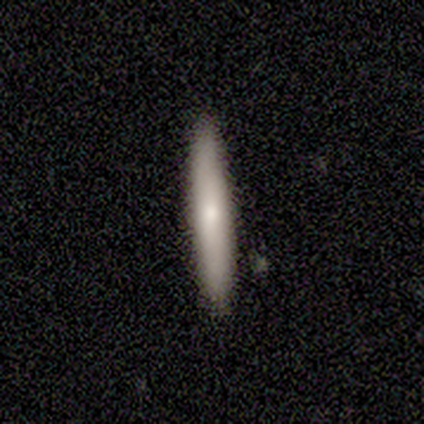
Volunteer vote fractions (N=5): This appears to be a smooth galaxy with no disk features (100%) that is cigar-shaped (100%). Merging: none (80%).